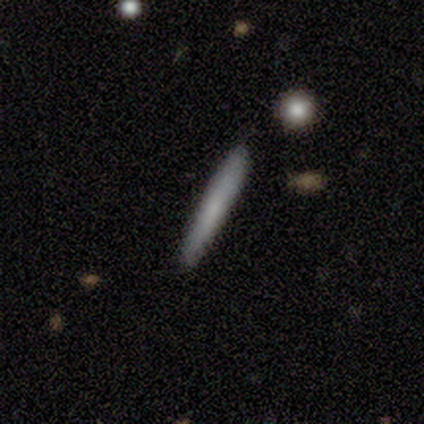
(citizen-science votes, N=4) This appears to be a smooth galaxy with no disk features (75%) that is cigar-shaped (100%). Merging: none (100%).